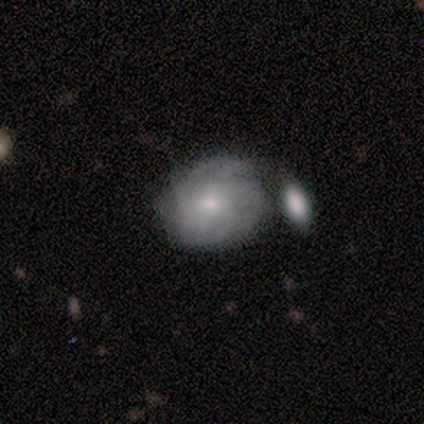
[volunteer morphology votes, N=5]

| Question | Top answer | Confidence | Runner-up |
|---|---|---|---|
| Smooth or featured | featured or disk | 60% | smooth (20%) |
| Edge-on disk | no | 100% | — |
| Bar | no | 67% | weak (33%) |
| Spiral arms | yes | 67% | no (33%) |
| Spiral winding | tight | 50% | tied: medium (50%) |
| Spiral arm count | more than 4 | 50% | tied: can't tell (50%) |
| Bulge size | small | 100% | — |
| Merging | none | 50% | tied: merger (50%) |